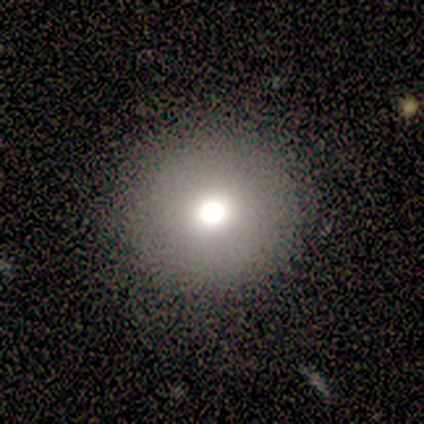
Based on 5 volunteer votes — smooth_or_featured: smooth (p=0.80) [alt: featured or disk p=0.20]
how_rounded: round (p=1.00)
merging: none (p=0.80) [alt: minor disturbance p=0.20]